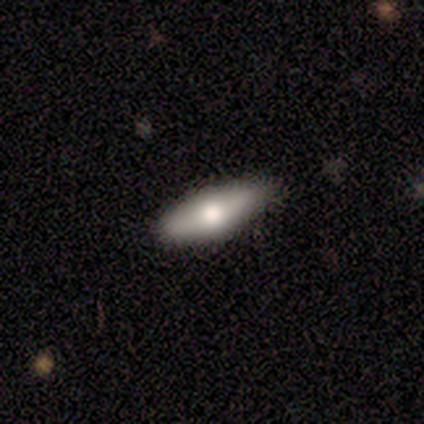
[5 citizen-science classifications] This appears to be a smooth galaxy with no disk features (80%) that is in between round and cigar-shaped (75%). Merging: none (100%).